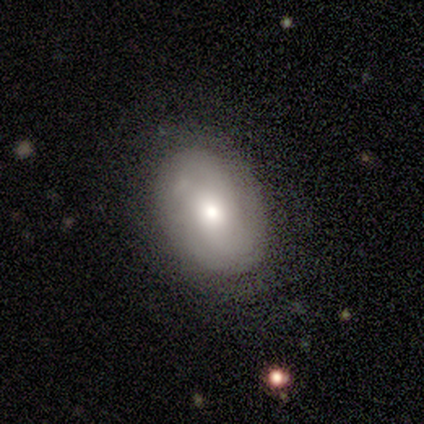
Smooth or featured: featured or disk — 75% (smooth — 25%)
Edge-on disk: no — 100%
Bar: no — 100%
Spiral arms: yes — 67% (no — 33%)
Spiral winding: tight — 50% (tied with medium — 50%)
Spiral arm count: 2 — 50% (tied with can't tell — 50%)
Bulge size: moderate — 67% (small — 33%)
Merging: none — 75% (major disturbance — 25%)